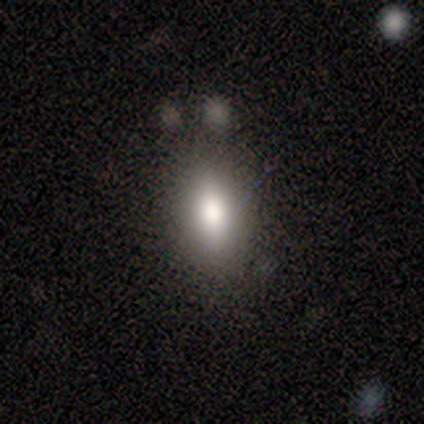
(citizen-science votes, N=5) Smooth or featured?
  - smooth: 80% *
  - star or artifact: 20%
  - featured or disk: 0%
How rounded?
  - in between: 100% *
  - round: 0%
  - cigar-shaped: 0%
Merging?
  - none: 75% *
  - minor disturbance: 25%
  - major disturbance: 0%
  - merger: 0%